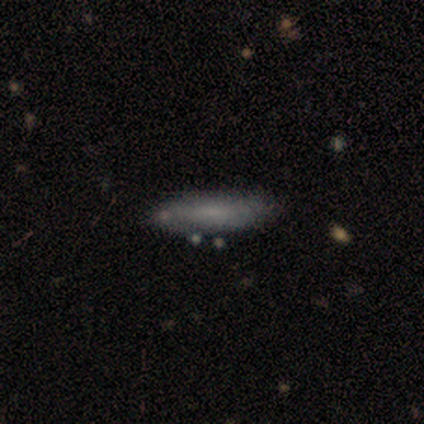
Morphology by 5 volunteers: Q: Smooth or featured?
A: smooth (60%); runner-up: featured or disk (20%)
Q: How rounded?
A: cigar-shaped (67%); runner-up: in between (33%)
Q: Merging?
A: none (75%); runner-up: minor disturbance (25%)